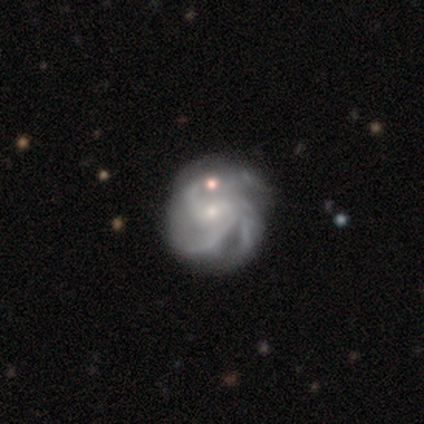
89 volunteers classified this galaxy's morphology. type=featured or disk (90%); edge-on=no (99%); bar=no (49%); spiral arms=yes (96%); winding=medium (54%); arm count=3 (46%); bulge=small (82%); merging=none (60%).